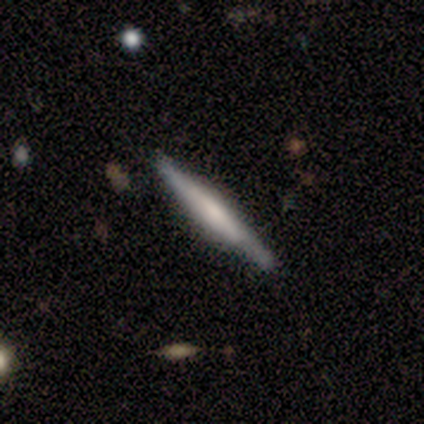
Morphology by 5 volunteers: smooth_or_featured: featured or disk (p=0.80) [alt: smooth p=0.20]
disk_edge_on: yes (p=1.00)
edge_on_bulge: none (p=0.50) [tied with: rounded p=0.50]
merging: none (p=0.40) [tied with: minor disturbance p=0.40]